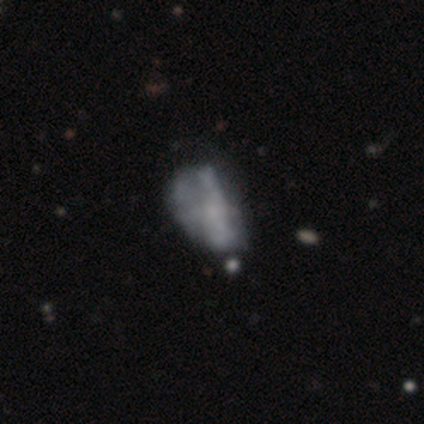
Smooth or featured? featured or disk (49%)
Edge-on disk? no (100%)
Bar? no (83%)
Spiral arms? no (89%)
Bulge size? none (83%)
Merging? major disturbance (29%)